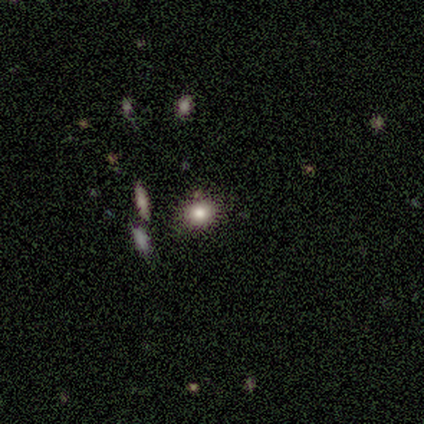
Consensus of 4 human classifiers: Smooth or featured: smooth — 100%
How rounded: round — 50% (in between — 25%)
Merging: none — 100%